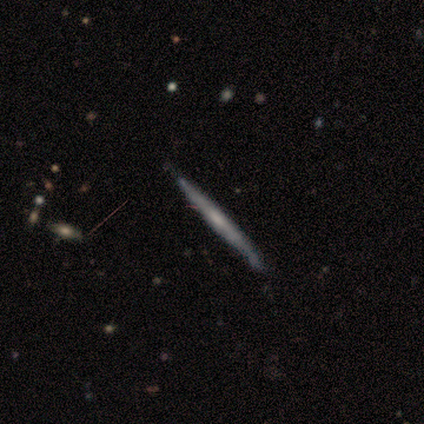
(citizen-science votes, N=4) A featured or disk galaxy (75%) viewed edge-on (100%) with no central bulge (67%). Merging: none (50%, tied with minor disturbance).